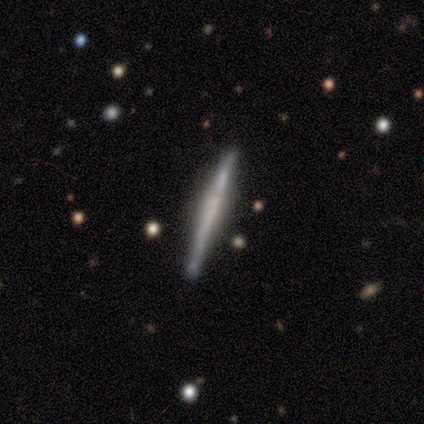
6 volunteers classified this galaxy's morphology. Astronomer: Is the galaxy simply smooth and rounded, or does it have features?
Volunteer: featured or disk — 83%.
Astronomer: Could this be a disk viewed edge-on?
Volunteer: yes — 100%.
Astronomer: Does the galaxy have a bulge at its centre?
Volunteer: rounded — 60% (runner-up: none, 40%).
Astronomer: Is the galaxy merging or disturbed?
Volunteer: none — 100%.